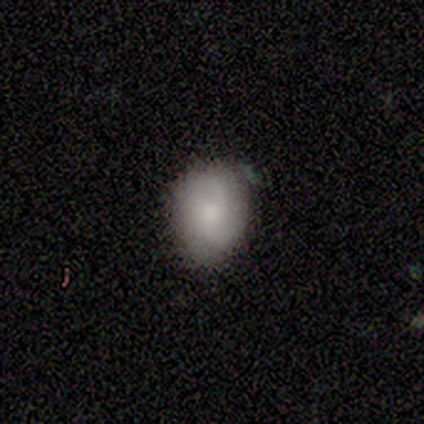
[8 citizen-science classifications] This appears to be a featured or disk galaxy (50%) with no bar (75%), 2 (50%, tied with can't tell) tight (50%, tied with medium) spiral arms (50%, tied with no) and no central bulge (75%). Merging: none (57%).